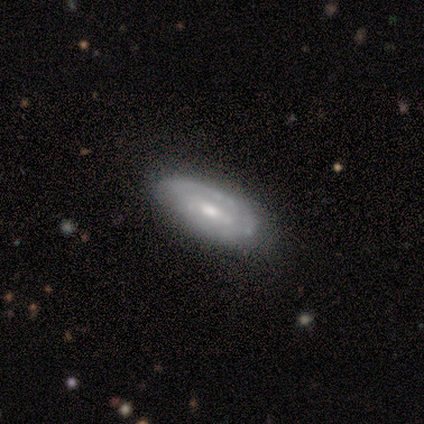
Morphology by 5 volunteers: This is likely a featured or disk galaxy (60%). It is clearly not viewed edge-on (100%). Bar: likely no (67%). Spiral arm pattern: clearly yes (100%). Spiral arm count: likely 2 (67%). Spiral winding: likely medium (67%). Central bulge: clearly moderate (100%). Merging: clearly none (100%).